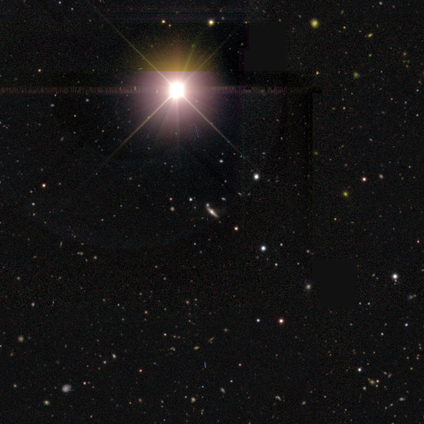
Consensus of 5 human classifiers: smooth-or-featured: star or artifact: 100% | smooth: 0% | featured or disk: 0%